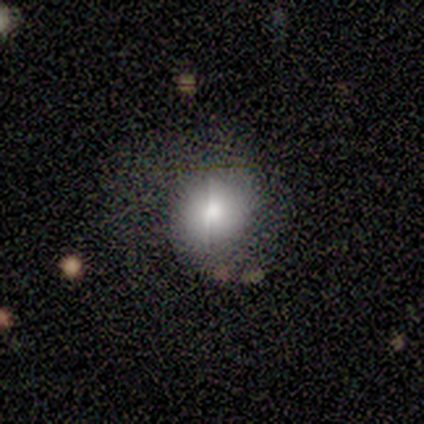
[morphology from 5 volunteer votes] smooth 80%, featured or disk 20%, star or artifact 0%. Down the decision tree: how rounded — round (75%); merging — none (60%).